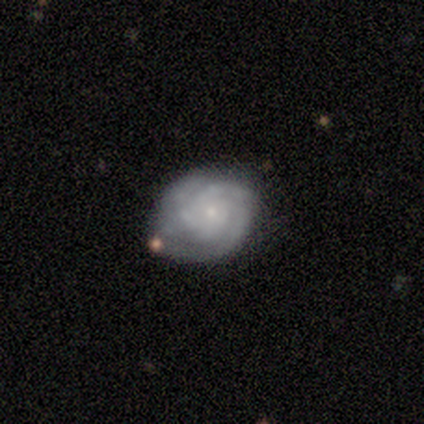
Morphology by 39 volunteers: Overall: featured or disk (77%). Edge-on disk: no (100%). Bar: no (77%). Spiral arms: yes (93%). Spiral arm count: 3 (36%, tied with can't tell). Spiral winding: tight (75%). Bulge size: small (77%). Merging: none (70%).